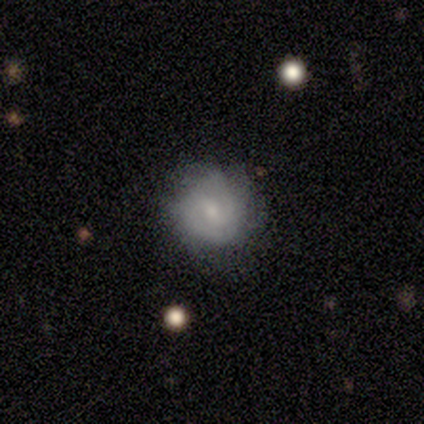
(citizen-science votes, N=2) This appears to be a smooth galaxy with no disk features (100%) that is round (100%). Merging: none (50%, tied with minor disturbance).